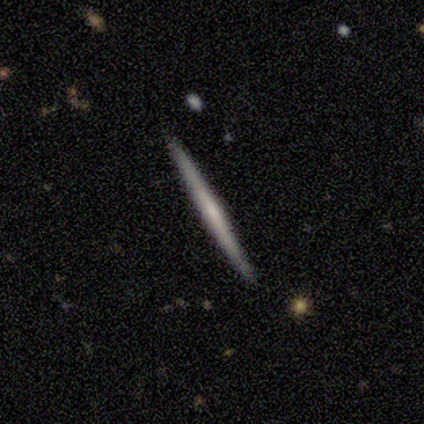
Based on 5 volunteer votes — This is clearly a featured or disk galaxy (80%). It is clearly viewed edge-on (100%). Edge-on bulge: likely none (75%). Merging: clearly none (100%).